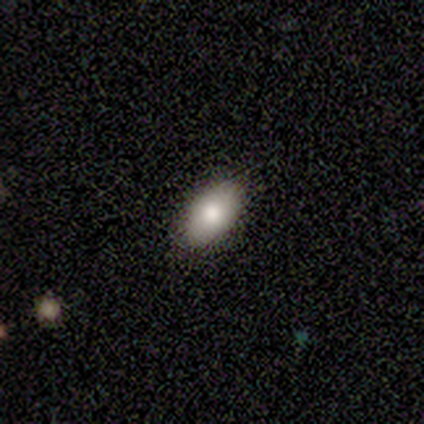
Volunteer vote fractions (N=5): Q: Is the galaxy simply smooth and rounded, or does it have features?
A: smooth — 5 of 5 (100%).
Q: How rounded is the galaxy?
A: in between — 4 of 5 (80%).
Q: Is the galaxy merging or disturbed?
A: none — 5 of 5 (100%).